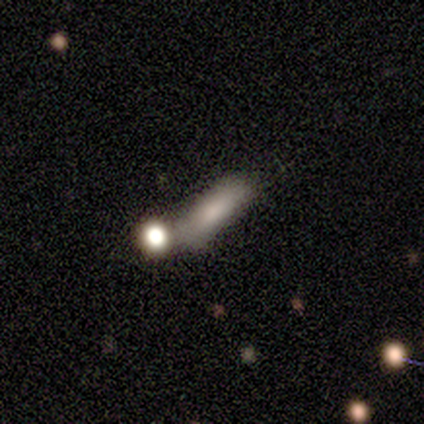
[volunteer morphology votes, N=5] Volunteers were most divided on "how rounded": cigar-shaped: 60%, in between: 40%, round: 0%. More confident: smooth or featured — smooth (100%); merging — none (60%).